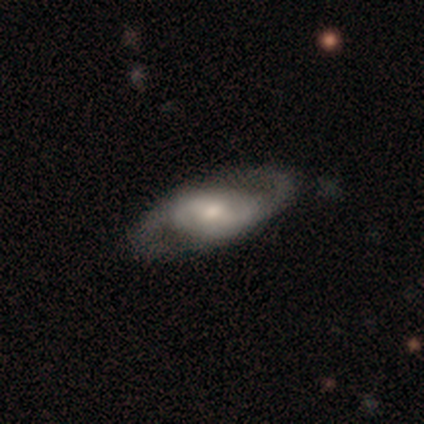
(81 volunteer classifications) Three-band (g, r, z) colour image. It shows a featured or disk galaxy (81%) with a weak bar (50%), 2 (91%) medium (53%) spiral arms (89%) and a small central bulge (44%). Merging: none (47%).